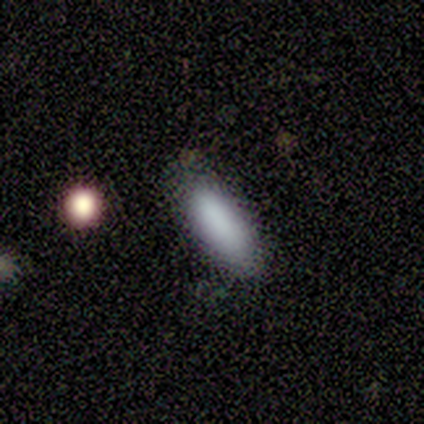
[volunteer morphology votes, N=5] smooth 100%, featured or disk 0%, star or artifact 0%. Down the decision tree: how rounded — in between (60%); merging — none (100%).